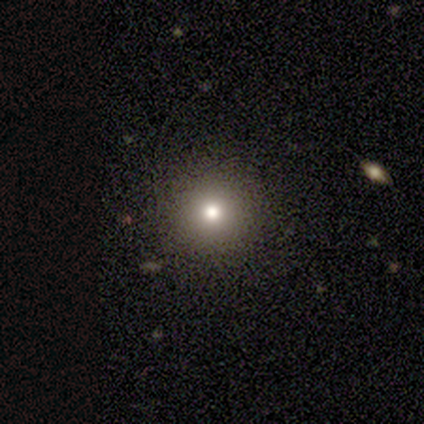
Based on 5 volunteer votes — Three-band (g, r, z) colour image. It shows a smooth galaxy with no disk features (40%, tied with star or artifact) that is round (50%, tied with in between). Merging: none (100%).